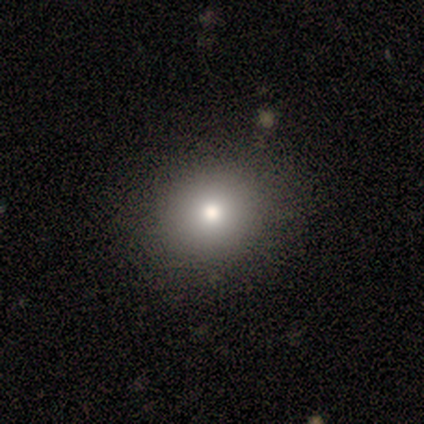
Smooth or featured?
  - smooth: 78% *
  - star or artifact: 22%
  - featured or disk: 0%
How rounded?
  - round: 100% *
  - in between: 0%
  - cigar-shaped: 0%
Merging?
  - none: 100% *
  - minor disturbance: 0%
  - major disturbance: 0%
  - merger: 0%